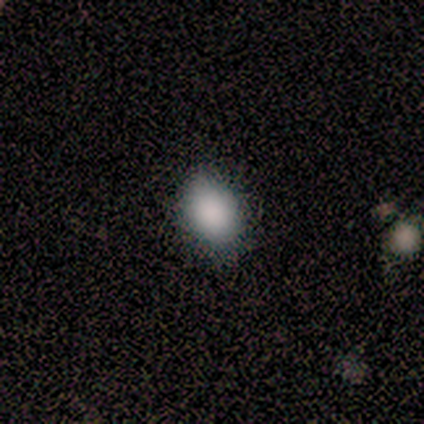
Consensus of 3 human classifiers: Volunteers were most divided on "merging" (3-way tie): none: 33%, minor disturbance: 33%, merger: 33%, major disturbance: 0%. More confident: smooth or featured — smooth (100%); how rounded — in between (100%).